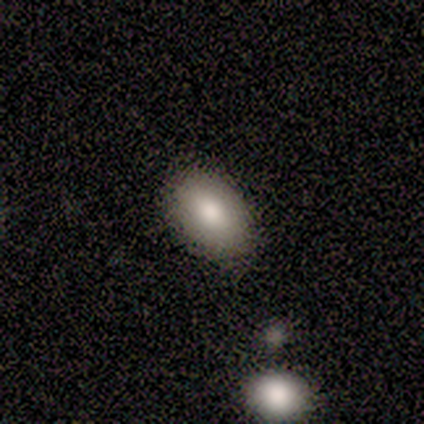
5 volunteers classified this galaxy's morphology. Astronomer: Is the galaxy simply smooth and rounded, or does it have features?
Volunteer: smooth — 80%.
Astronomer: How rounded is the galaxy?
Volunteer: in between — 100%.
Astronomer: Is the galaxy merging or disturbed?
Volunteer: none — 75%.